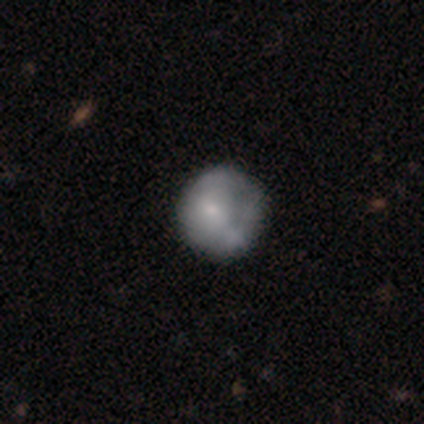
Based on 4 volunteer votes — Smooth or featured?
  - smooth: 75% *
  - star or artifact: 25%
  - featured or disk: 0%
How rounded?
  - round: 100% *
  - in between: 0%
  - cigar-shaped: 0%
Merging?
  - none: 67% *
  - minor disturbance: 33%
  - major disturbance: 0%
  - merger: 0%